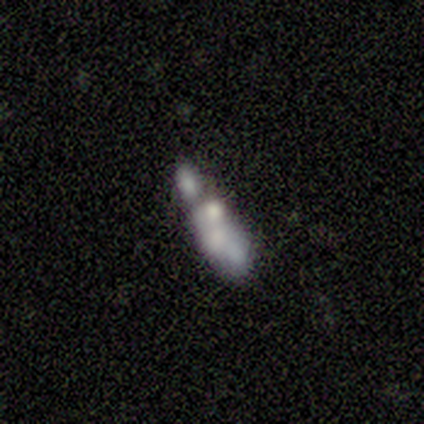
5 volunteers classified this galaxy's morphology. This is likely a featured or disk galaxy (60%). It is clearly not viewed edge-on (100%). Bar: clearly no (100%). Spiral arm pattern: clearly no (100%). Central bulge: likely none (67%). Merging: possibly major disturbance (50%, tied with merger).